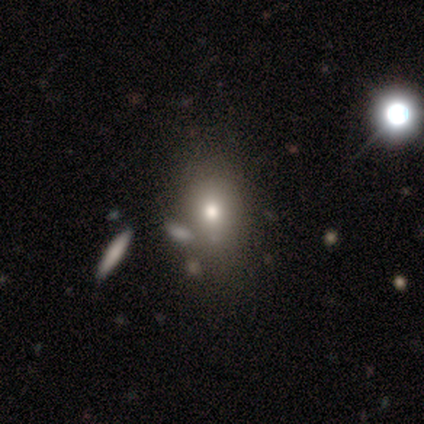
Smooth or featured?
  - smooth: 50% *
  - star or artifact: 38%
  - featured or disk: 12%
How rounded?
  - round: 75% *
  - in between: 25%
  - cigar-shaped: 0%
Merging?
  - none: 80% *
  - major disturbance: 20%
  - minor disturbance: 0%
  - merger: 0%